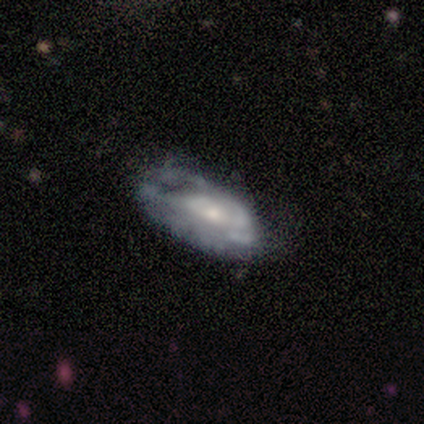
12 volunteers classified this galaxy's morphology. A featured or disk galaxy (75%) with a weak bar (44%, tied with no), medium (100%) spiral arms (56%) and a moderate central bulge (56%).

Vote fractions:
- Smooth or featured? featured or disk: 75% / star or artifact: 17% / smooth: 8%
- Edge-on disk? no: 100% / yes: 0%
- Bar? weak: 44% (tied) / no: 44% (tied) / strong: 11%
- Spiral arms? yes: 56% / no: 44%
- Spiral winding? medium: 100% / tight: 0% / loose: 0%
- Spiral arm count? can't tell: 60% / 2: 40% / 1: 0% / 3: 0% / 4: 0% / more than 4: 0%
- Bulge size? moderate: 56% / small: 44% / dominant: 0% / large: 0% / none: 0%
- Merging? minor disturbance: 50% / none: 30% / major disturbance: 20% / merger: 0%